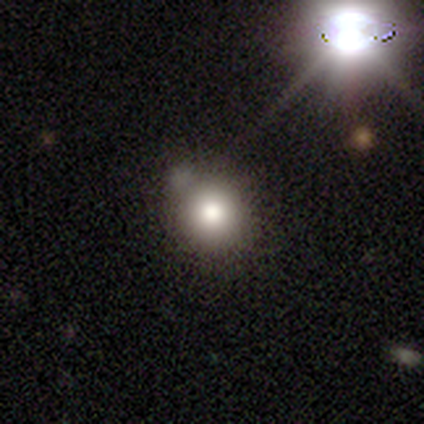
A smooth galaxy with no disk features (60%) that is round (100%).

Vote fractions:
- Smooth or featured? smooth: 60% / featured or disk: 20% / star or artifact: 20%
- How rounded? round: 100% / in between: 0% / cigar-shaped: 0%
- Merging? minor disturbance: 50% / none: 25% / merger: 25% / major disturbance: 0%